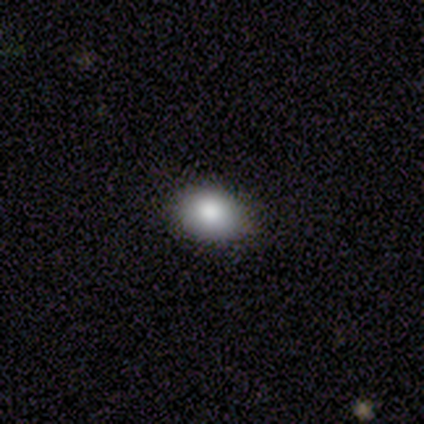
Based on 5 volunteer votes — Smooth or featured? smooth (100%)
How rounded? round (60%)
Merging? none (60%)